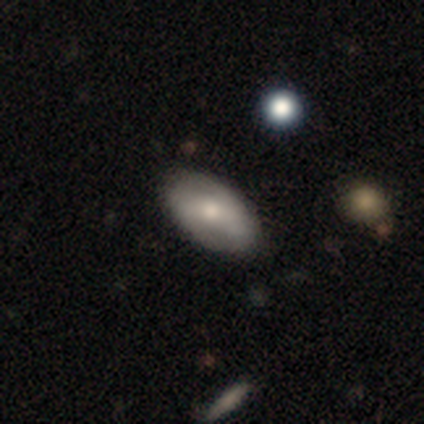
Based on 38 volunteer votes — Smooth or featured?
  - smooth: 55% *
  - featured or disk: 37%
  - star or artifact: 8%
How rounded?
  - in between: 95% *
  - round: 5%
  - cigar-shaped: 0%
Merging?
  - none: 80% *
  - minor disturbance: 20%
  - major disturbance: 0%
  - merger: 0%